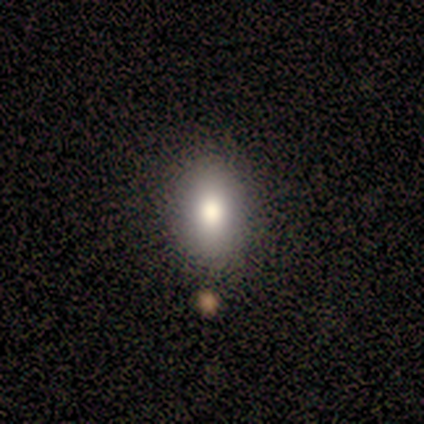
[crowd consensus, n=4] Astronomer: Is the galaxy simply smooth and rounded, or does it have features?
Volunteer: smooth — 100%.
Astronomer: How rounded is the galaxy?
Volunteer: in between — 75%.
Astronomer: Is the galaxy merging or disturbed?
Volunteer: none — 75%.